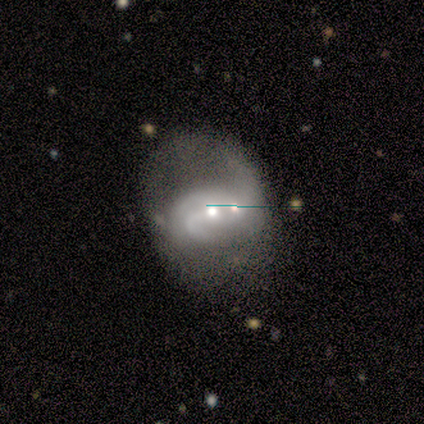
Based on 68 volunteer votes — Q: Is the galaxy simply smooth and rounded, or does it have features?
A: featured or disk — 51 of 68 (75%).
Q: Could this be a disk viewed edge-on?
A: no — 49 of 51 (96%).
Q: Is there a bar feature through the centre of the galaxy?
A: no — 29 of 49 (59%).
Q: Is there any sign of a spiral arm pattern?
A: yes — 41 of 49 (84%).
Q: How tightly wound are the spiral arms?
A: loose — 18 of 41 (44%).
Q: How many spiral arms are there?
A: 2 — 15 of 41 (37%).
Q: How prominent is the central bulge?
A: moderate — 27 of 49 (55%).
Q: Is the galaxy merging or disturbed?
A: merger — 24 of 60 (40%).